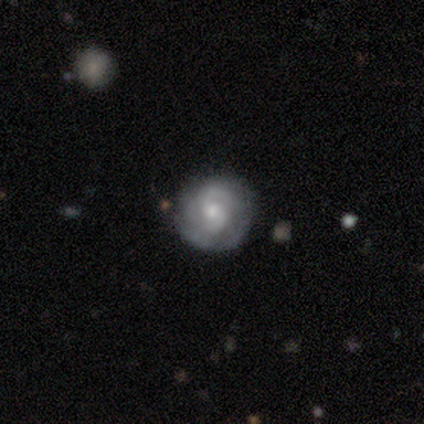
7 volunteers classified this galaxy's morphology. Smooth or featured? 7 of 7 (100%) said featured or disk. Edge-on disk? 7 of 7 (100%) said no. Bar? 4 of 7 (57%) said no. Spiral arms? 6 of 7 (86%) said yes. Spiral winding? 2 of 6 (33%, tied with medium and loose) said tight. Spiral arm count? 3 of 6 (50%) said 2. Bulge size? 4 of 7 (57%) said moderate. Merging? 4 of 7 (57%) said none.